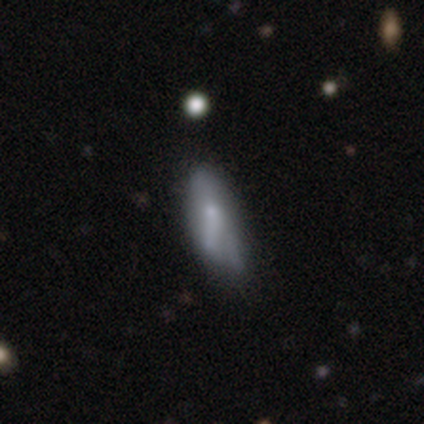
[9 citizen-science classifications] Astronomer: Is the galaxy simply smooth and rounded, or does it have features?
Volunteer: smooth — 67%.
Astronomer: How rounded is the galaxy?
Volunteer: in between — 50%, tied with cigar-shaped at 50%.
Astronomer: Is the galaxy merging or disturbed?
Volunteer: none — 44%, tied with minor disturbance at 44%.